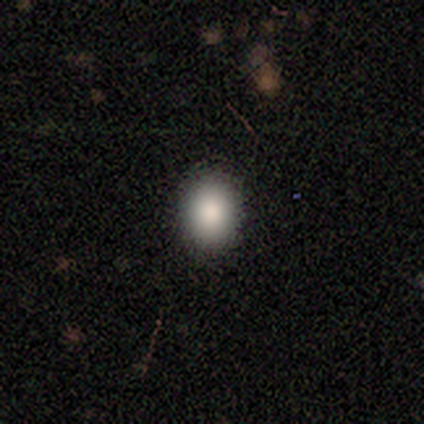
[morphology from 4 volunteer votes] Overall: smooth (50%; featured or disk 25%). How rounded: in between (100%). Merging: none (100%).